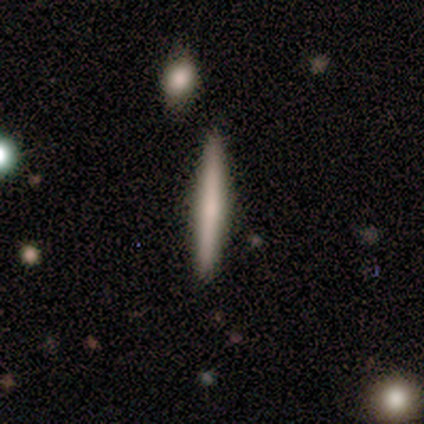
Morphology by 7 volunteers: This is likely a smooth galaxy (71%). How rounded: clearly cigar-shaped (100%). Merging: clearly none (100%).